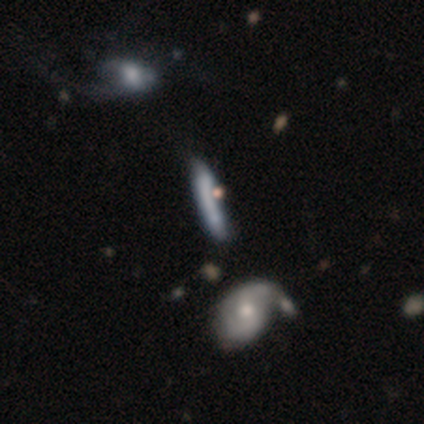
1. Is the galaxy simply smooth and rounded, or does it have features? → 40% smooth (tied), 40% star or artifact (tied), 20% featured or disk.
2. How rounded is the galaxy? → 100% cigar-shaped, 0% round, 0% in between.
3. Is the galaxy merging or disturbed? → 67% merger, 33% none, 0% minor disturbance, 0% major disturbance.